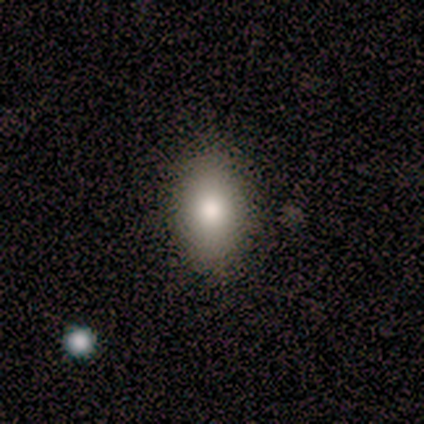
smooth_or_featured: smooth (p=0.75) [alt: star or artifact p=0.25]
how_rounded: in between (p=1.00)
merging: none (p=0.67) [alt: minor disturbance p=0.33]